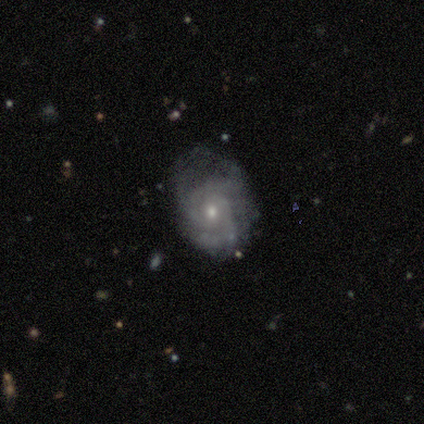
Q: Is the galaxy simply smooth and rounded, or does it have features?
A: featured or disk — 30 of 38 (79%).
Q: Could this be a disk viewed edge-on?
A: no — 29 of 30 (97%).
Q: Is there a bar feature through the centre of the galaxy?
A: no — 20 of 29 (69%).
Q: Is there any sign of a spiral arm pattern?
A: yes — 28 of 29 (97%).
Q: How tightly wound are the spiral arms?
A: tight — 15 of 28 (54%).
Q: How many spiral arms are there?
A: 2 — 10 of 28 (36%).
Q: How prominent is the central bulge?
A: small — 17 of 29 (59%).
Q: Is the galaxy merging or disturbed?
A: none — 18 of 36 (50%).